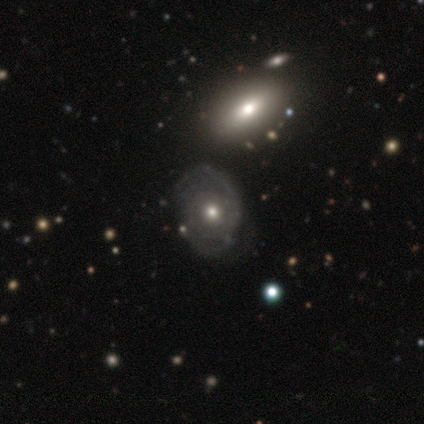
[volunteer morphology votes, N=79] featured or disk 75%, smooth 23%, star or artifact 3%. Down the decision tree: edge-on disk — no (97%); bar — no (82%); spiral arms — yes (84%); spiral arm count — can't tell (54%); spiral winding — tight (50%); bulge size — moderate (58%); merging — none (38%).